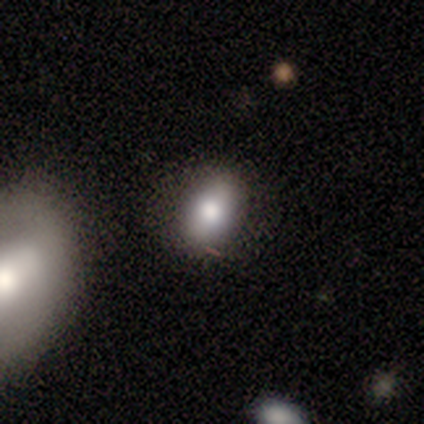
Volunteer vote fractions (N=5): smooth-or-featured: smooth: 80% | featured or disk: 20% | star or artifact: 0%
  how-rounded: in between: 75% | round: 25% | cigar-shaped: 0%
  merging: none: 80% | minor disturbance: 20% | major disturbance: 0% | merger: 0%